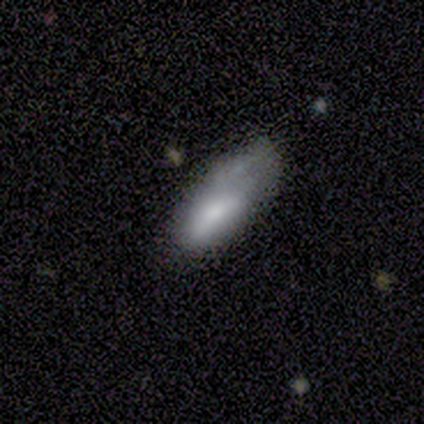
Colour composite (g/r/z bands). It shows a smooth galaxy with no disk features (67%) that is in between round and cigar-shaped (100%). Merging: minor disturbance (100%).